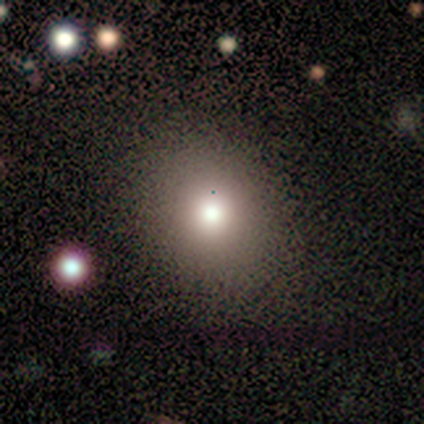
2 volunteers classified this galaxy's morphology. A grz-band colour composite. It shows a smooth galaxy with no disk features (50%, tied with star or artifact) that is round (100%). Merging: none (100%).